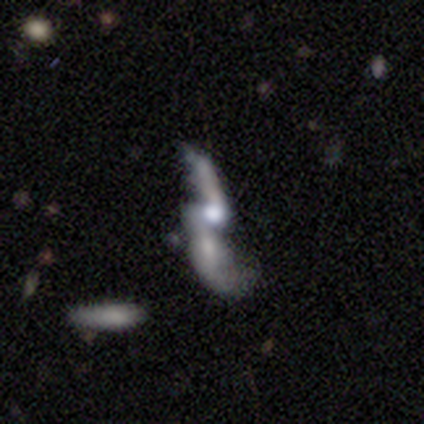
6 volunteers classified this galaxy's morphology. A featured or disk galaxy (83%) with no bar (80%), 2 (75%) loose (100%) spiral arms (80%) and a moderate central bulge (80%). Merging: merger (67%).